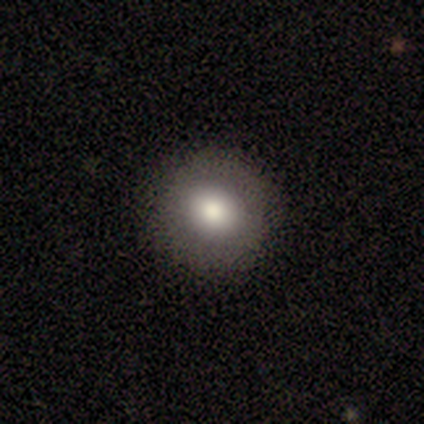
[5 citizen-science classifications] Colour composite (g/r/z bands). It shows a smooth galaxy with no disk features (80%) that is round (75%). Merging: none (100%).